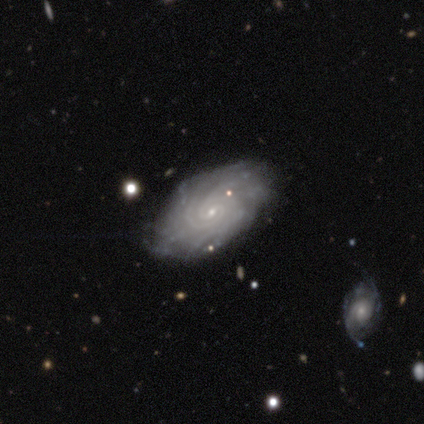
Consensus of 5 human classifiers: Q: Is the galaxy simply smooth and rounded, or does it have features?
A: featured or disk — 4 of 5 (80%).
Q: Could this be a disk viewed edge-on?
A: no — 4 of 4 (100%).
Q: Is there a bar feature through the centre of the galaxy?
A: weak — 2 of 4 (50%, tied with no).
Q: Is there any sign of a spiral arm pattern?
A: yes — 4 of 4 (100%).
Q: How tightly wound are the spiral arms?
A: tight — 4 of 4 (100%).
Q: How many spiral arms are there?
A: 2 — 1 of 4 (25%, tied with 3, 4 and more than 4).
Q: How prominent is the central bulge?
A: small — 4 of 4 (100%).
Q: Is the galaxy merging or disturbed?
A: none — 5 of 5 (100%).